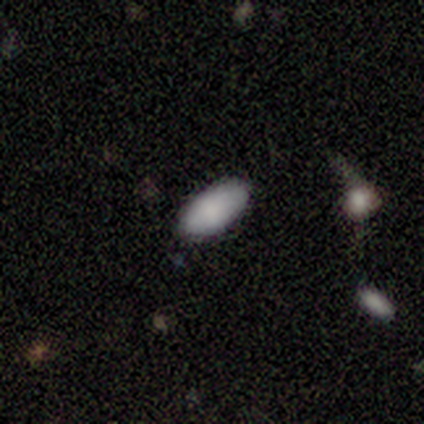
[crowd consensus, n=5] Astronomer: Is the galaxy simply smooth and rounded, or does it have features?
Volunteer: smooth — 100%.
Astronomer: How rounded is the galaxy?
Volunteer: in between — 100%.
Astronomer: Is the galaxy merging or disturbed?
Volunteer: none — 100%.